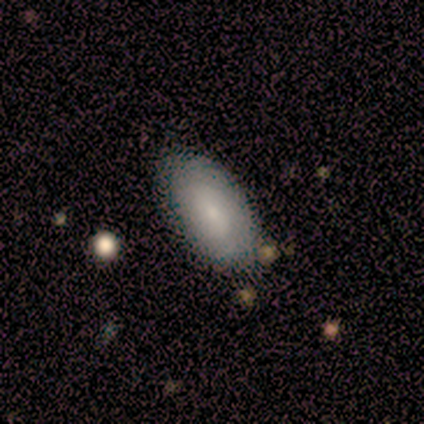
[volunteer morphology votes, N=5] smooth 80%, featured or disk 20%, star or artifact 0%. Down the decision tree: how rounded — in between (100%); merging — none (80%).